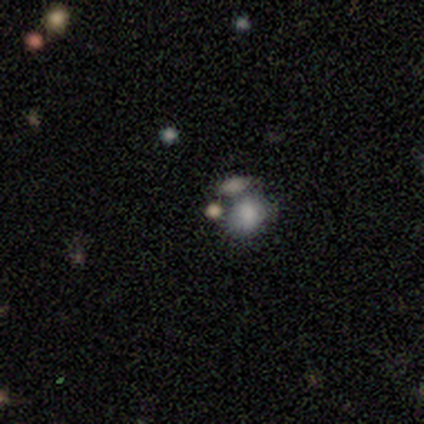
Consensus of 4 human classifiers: Volunteers were most divided on "bar" (2-way tie): weak: 50%, no: 50%, strong: 0%; "bulge size" (2-way tie): moderate: 50%, small: 50%, dominant: 0%, large: 0%, none: 0%; "merging" (3-way tie): none: 33%, minor disturbance: 33%, merger: 33%, major disturbance: 0%. More confident: edge-on disk — no (100%); spiral arms — no (100%); smooth or featured — featured or disk (50%).